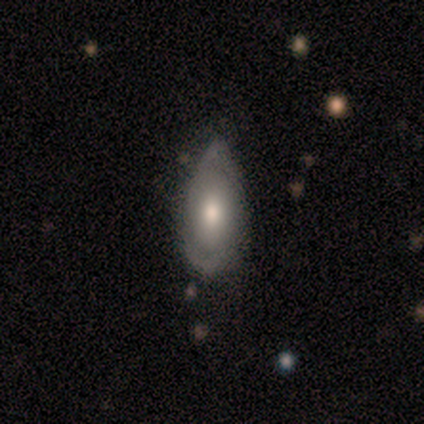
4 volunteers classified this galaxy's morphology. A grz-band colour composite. It shows a smooth galaxy with no disk features (50%, tied with featured or disk) that is in between round and cigar-shaped (50%, tied with cigar-shaped). Merging: none (50%, tied with minor disturbance).